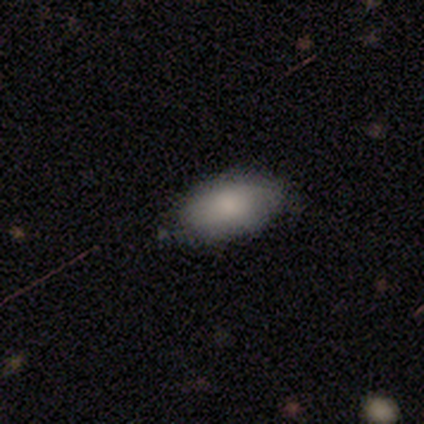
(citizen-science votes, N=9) Smooth or featured?
  - smooth: 100% *
  - featured or disk: 0%
  - star or artifact: 0%
How rounded?
  - in between: 100% *
  - round: 0%
  - cigar-shaped: 0%
Merging?
  - none: 56% *
  - minor disturbance: 44%
  - major disturbance: 0%
  - merger: 0%